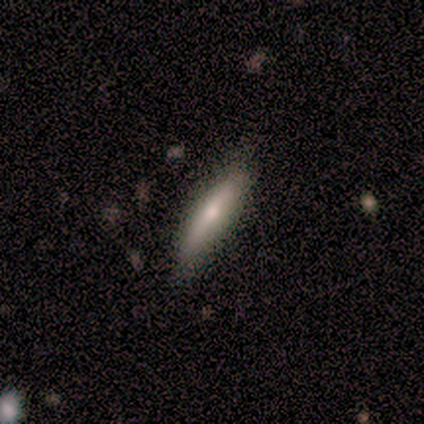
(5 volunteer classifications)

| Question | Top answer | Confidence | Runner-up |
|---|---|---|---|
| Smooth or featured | featured or disk | 60% | smooth (40%) |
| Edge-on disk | yes | 100% | — |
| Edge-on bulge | rounded | 100% | — |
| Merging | none | 80% | minor disturbance (20%) |